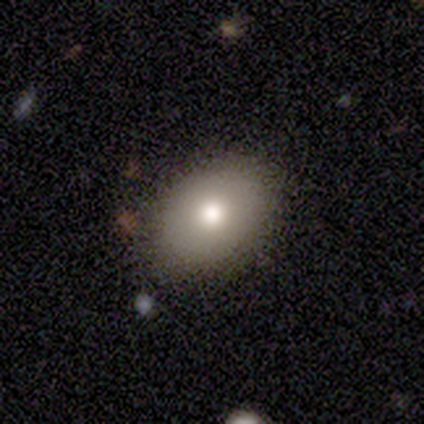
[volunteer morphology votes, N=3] This is clearly a smooth galaxy (100%). How rounded: clearly in between (100%). Merging: clearly none (100%).